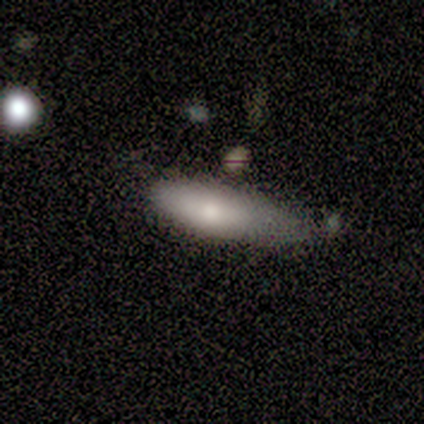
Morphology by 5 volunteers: Smooth or featured?
  - smooth: 60% *
  - featured or disk: 20%
  - star or artifact: 20%
How rounded?
  - in between: 100% *
  - round: 0%
  - cigar-shaped: 0%
Merging?
  - minor disturbance: 100% *
  - none: 0%
  - major disturbance: 0%
  - merger: 0%